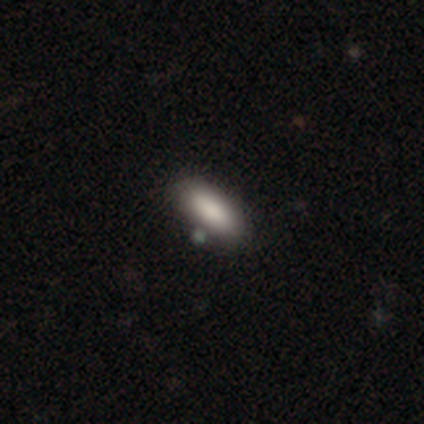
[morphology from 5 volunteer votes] Smooth or featured? smooth (100%)
How rounded? in between (100%)
Merging? none (100%)